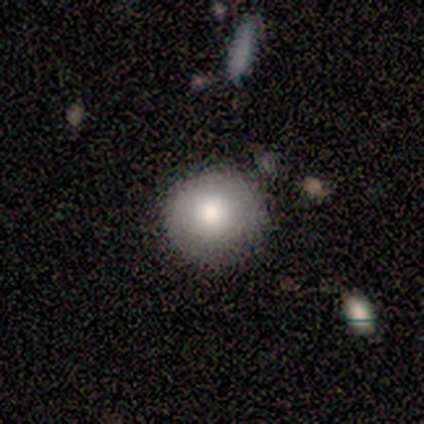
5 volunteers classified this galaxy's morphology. Smooth or featured? smooth (80%)
How rounded? round (50%, tied with in between)
Merging? none (75%)